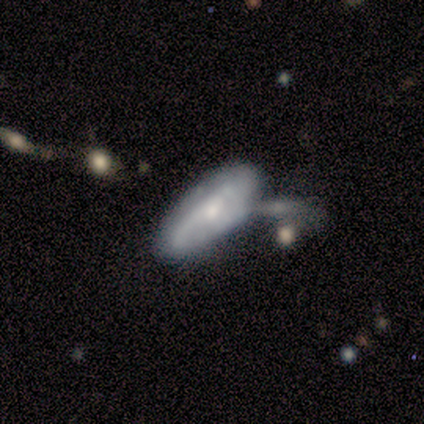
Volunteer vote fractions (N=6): smooth_or_featured: smooth (p=0.50) [alt: featured or disk p=0.33]
how_rounded: in between (p=0.67) [alt: cigar-shaped p=0.33]
merging: merger (p=0.40) [alt: none p=0.20]